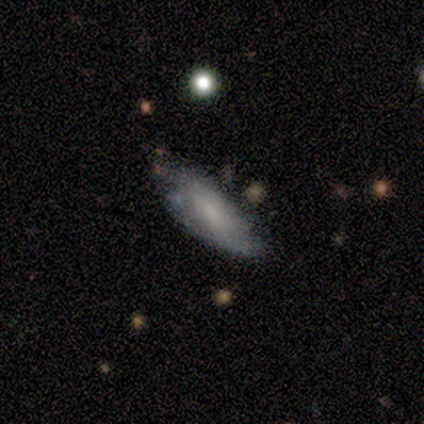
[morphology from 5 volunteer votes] This is clearly a smooth galaxy (80%). How rounded: clearly in between (100%). Merging: marginally none (40%, tied with major disturbance).